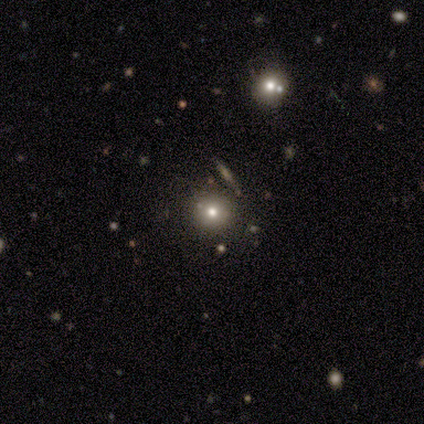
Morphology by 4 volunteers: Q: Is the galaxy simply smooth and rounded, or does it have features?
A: smooth — 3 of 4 (75%).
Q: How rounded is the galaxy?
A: round — 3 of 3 (100%).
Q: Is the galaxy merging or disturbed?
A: none — 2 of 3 (67%).